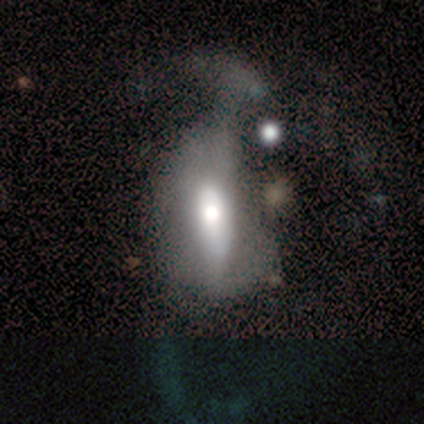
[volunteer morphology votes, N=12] Volunteers were most divided on "smooth or featured" (2-way tie): smooth: 42%, featured or disk: 42%, star or artifact: 17%. More confident: how rounded — in between (60%); merging — major disturbance (60%).